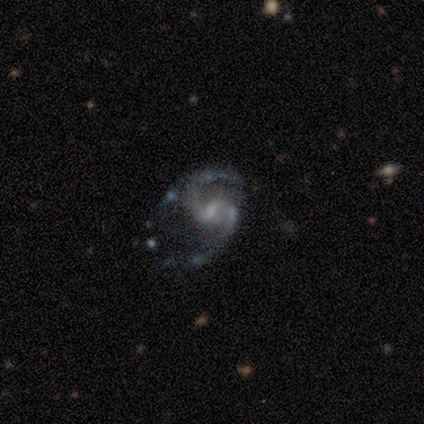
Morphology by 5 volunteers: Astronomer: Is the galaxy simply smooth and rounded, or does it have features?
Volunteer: featured or disk — 100%.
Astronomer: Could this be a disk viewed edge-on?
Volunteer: no — 100%.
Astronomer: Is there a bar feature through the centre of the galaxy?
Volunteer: weak — 80%.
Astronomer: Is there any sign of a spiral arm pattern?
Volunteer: yes — 100%.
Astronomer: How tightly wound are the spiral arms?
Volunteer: medium — 40%, tied with loose at 40%.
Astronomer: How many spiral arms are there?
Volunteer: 2 — 100%.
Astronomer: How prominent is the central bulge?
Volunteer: small — 80%.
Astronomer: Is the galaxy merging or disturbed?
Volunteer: minor disturbance — 80%.